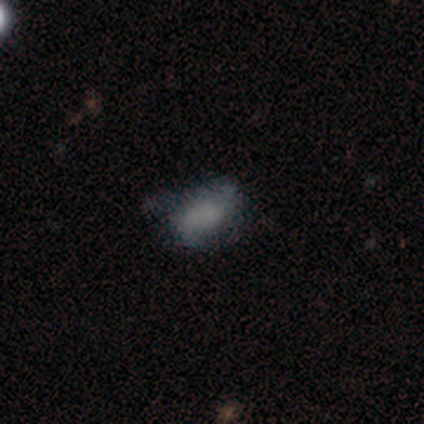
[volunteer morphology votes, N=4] Q: Smooth or featured?
A: smooth (50%); runner-up: featured or disk (25%)
Q: How rounded?
A: in between (100%)
Q: Merging?
A: none (67%); runner-up: major disturbance (33%)